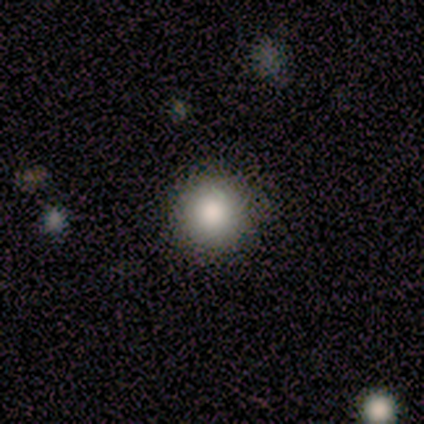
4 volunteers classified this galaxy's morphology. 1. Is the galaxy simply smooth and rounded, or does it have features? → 75% smooth, 25% star or artifact, 0% featured or disk.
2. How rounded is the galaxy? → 100% round, 0% in between, 0% cigar-shaped.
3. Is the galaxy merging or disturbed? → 100% none, 0% minor disturbance, 0% major disturbance, 0% merger.